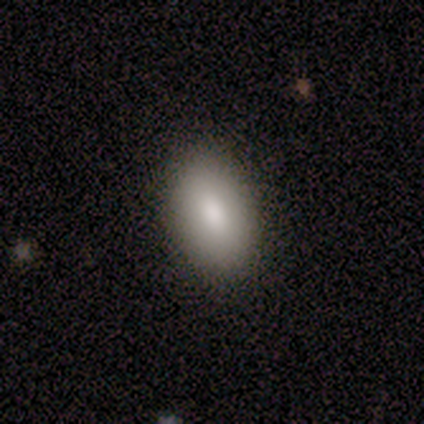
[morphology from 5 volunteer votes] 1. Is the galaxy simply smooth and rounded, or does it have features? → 100% smooth, 0% featured or disk, 0% star or artifact.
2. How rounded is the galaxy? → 100% in between, 0% round, 0% cigar-shaped.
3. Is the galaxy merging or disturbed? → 100% none, 0% minor disturbance, 0% major disturbance, 0% merger.